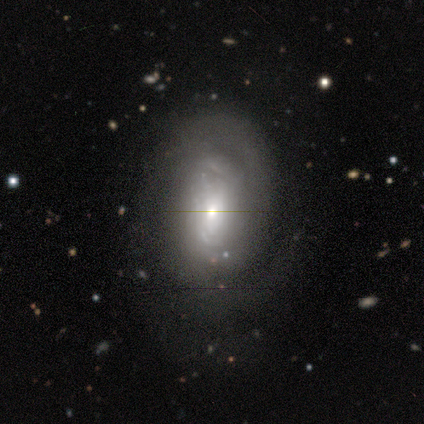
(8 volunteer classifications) This appears to be a featured or disk galaxy (100%) with no bar (88%), 2 (43%, tied with can't tell) tight (57%) spiral arms (88%) and a moderate central bulge (50%). Merging: none (62%).